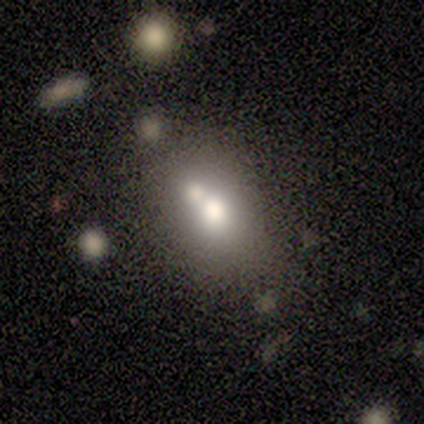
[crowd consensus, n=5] Q: Smooth or featured?
A: smooth (80%); runner-up: star or artifact (20%)
Q: How rounded?
A: in between (75%); runner-up: round (25%)
Q: Merging?
A: merger (75%); runner-up: minor disturbance (25%)